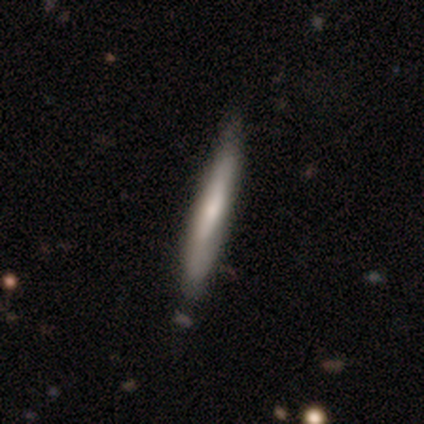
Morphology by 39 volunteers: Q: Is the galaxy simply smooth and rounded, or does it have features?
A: smooth — 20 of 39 (51%).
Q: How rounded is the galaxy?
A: cigar-shaped — 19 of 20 (95%).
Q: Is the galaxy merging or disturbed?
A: none — 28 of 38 (74%).